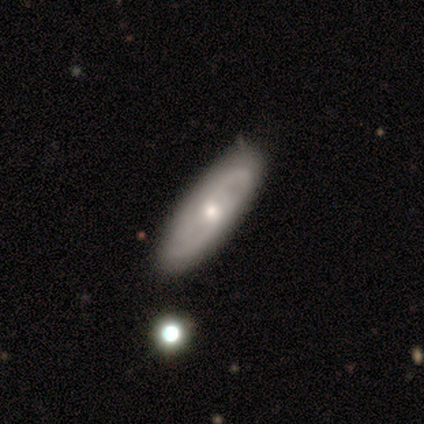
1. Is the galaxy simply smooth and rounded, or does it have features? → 40% smooth (tied), 40% featured or disk (tied), 20% star or artifact.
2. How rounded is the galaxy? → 50% in between (tied), 50% cigar-shaped (tied), 0% round.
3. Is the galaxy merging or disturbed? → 75% none, 25% minor disturbance, 0% major disturbance, 0% merger.